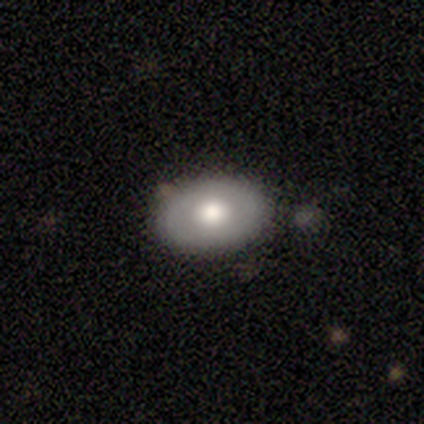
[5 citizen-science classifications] smooth 80%, featured or disk 20%, star or artifact 0%. Down the decision tree: how rounded — in between (75%); merging — none (80%).